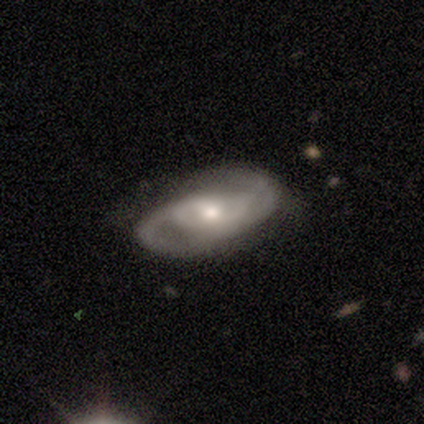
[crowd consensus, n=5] smooth_or_featured: featured or disk (p=0.80) [alt: smooth p=0.20]
disk_edge_on: no (p=1.00)
bar: weak (p=0.75) [alt: no p=0.25]
has_spiral_arms: yes (p=1.00)
spiral_winding: medium (p=0.75) [alt: tight p=0.25]
spiral_arm_count: 2 (p=0.75) [alt: can't tell p=0.25]
bulge_size: small (p=0.50) [alt: large p=0.25]
merging: none (p=0.60) [alt: minor disturbance p=0.40]